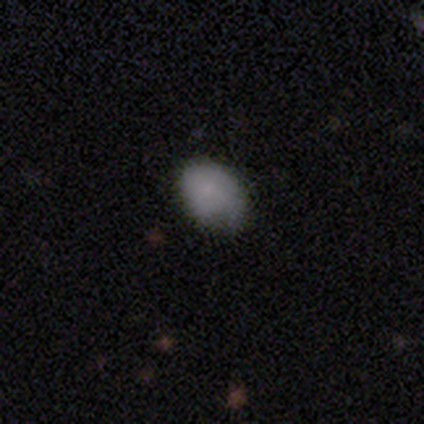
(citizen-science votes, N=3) Q: Smooth or featured?
A: smooth (100%)
Q: How rounded?
A: in between (67%); runner-up: round (33%)
Q: Merging?
A: minor disturbance (67%); runner-up: none (33%)